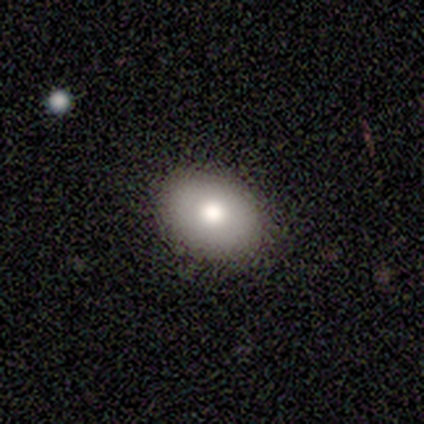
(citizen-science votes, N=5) Smooth or featured: smooth — 100%
How rounded: in between — 100%
Merging: none — 80% (minor disturbance — 20%)